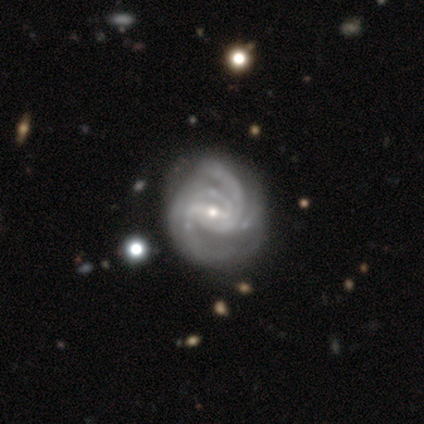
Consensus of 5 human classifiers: This is clearly a featured or disk galaxy (100%). It is clearly not viewed edge-on (100%). Bar: likely weak (60%). Spiral arm pattern: clearly yes (100%). Spiral arm count: marginally 2 (20%, tied with 3, 4, more than 4 and can't tell). Spiral winding: marginally tight (40%, tied with medium). Central bulge: clearly small (80%). Merging: clearly none (100%).